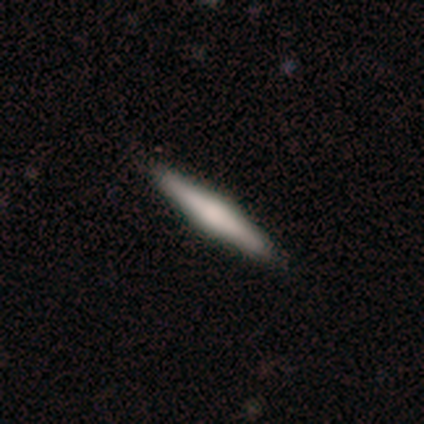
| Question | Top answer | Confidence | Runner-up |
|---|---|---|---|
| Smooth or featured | featured or disk | 70% | smooth (30%) |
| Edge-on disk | yes | 96% | no (4%) |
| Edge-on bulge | rounded | 67% | boxy (30%) |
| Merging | none | 68% | major disturbance (2%) |